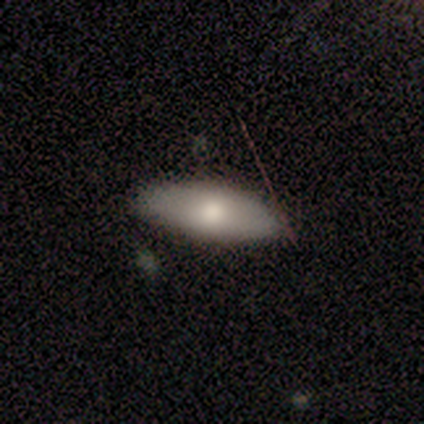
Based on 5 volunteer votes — Volunteers were most divided on "how rounded": in between: 75%, cigar-shaped: 25%, round: 0%. More confident: merging — none (100%); smooth or featured — smooth (80%).